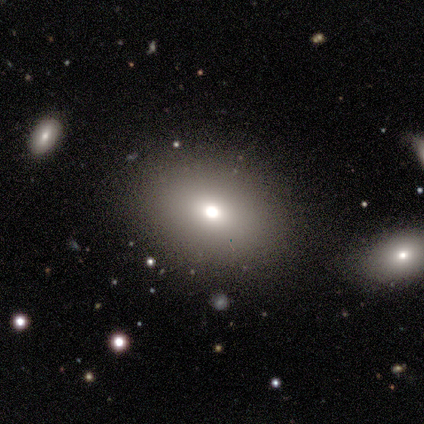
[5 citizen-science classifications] Smooth or featured?
  - smooth: 100% *
  - featured or disk: 0%
  - star or artifact: 0%
How rounded?
  - in between: 80% *
  - round: 20%
  - cigar-shaped: 0%
Merging?
  - none: 100% *
  - minor disturbance: 0%
  - major disturbance: 0%
  - merger: 0%